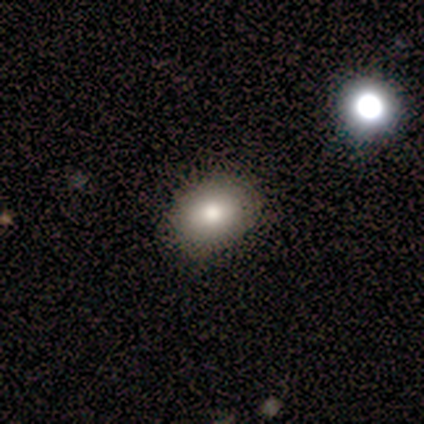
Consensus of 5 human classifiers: smooth 100%, featured or disk 0%, star or artifact 0%. Down the decision tree: how rounded — in between (80%); merging — none (100%).